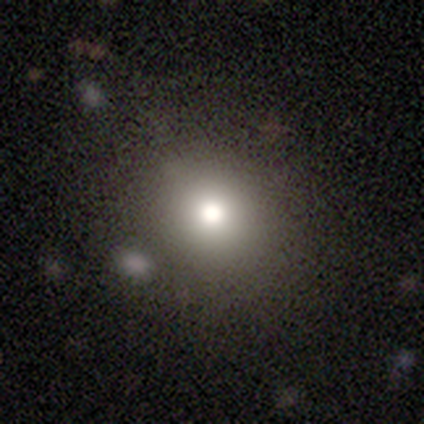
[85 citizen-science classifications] smooth-or-featured: smooth: 71% | star or artifact: 21% | featured or disk: 8%
  how-rounded: round: 80% | in between: 18% | cigar-shaped: 2%
  merging: none: 78% | minor disturbance: 13% | merger: 6% | major disturbance: 3%